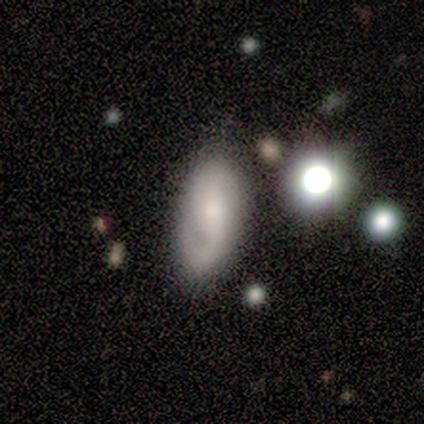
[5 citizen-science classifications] Smooth or featured: smooth — 60% (featured or disk — 20%)
How rounded: in between — 67% (cigar-shaped — 33%)
Merging: minor disturbance — 75% (none — 25%)